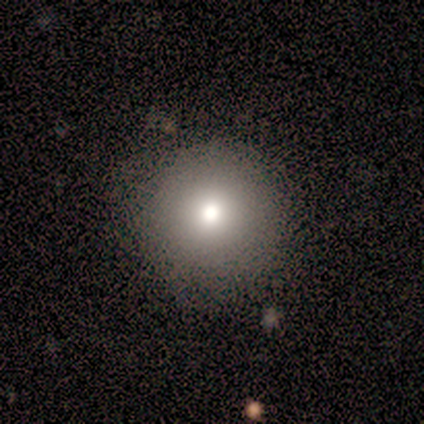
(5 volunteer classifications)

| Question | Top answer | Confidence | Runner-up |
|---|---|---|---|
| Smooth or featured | smooth | 100% | — |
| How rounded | round | 100% | — |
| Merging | none | 100% | — |